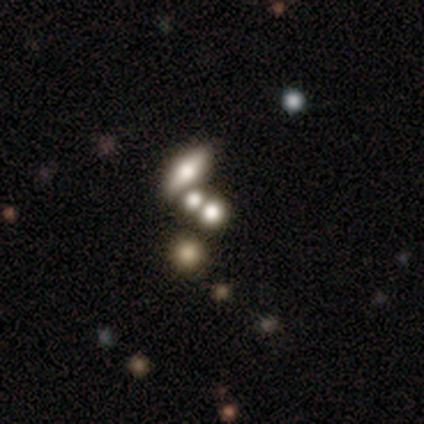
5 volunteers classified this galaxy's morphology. smooth-or-featured: smooth: 80% | featured or disk: 20% | star or artifact: 0%
  how-rounded: round: 75% | in between: 25% | cigar-shaped: 0%
  merging: none: 40% | minor disturbance: 20% | major disturbance: 20% | merger: 20%